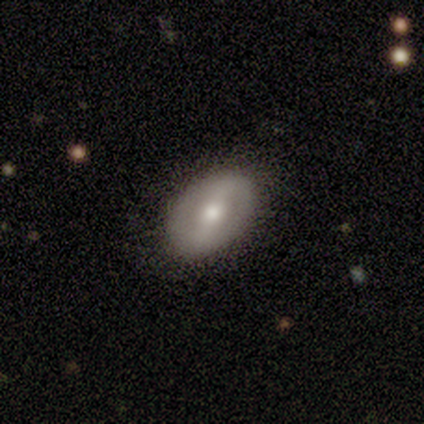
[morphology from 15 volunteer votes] Smooth or featured?
  - featured or disk: 60% *
  - smooth: 33%
  - star or artifact: 7%
Edge-on disk?
  - no: 100% *
  - yes: 0%
Bar?
  - weak: 56% *
  - strong: 22%
  - no: 22%
Spiral arms?
  - no: 56% *
  - yes: 44%
Bulge size?
  - moderate: 67% *
  - small: 33%
  - dominant: 0%
  - large: 0%
  - none: 0%
Merging?
  - none: 86% *
  - minor disturbance: 14%
  - major disturbance: 0%
  - merger: 0%